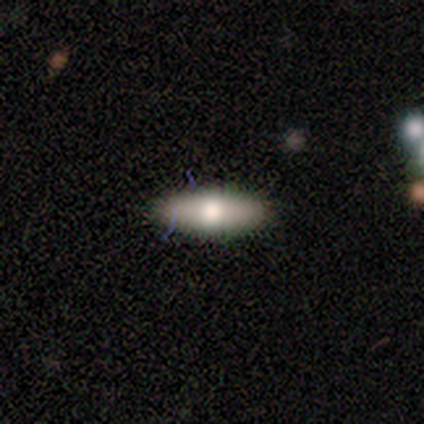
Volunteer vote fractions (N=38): Morphology: type=smooth (76%); roundness=in between (66%); merging=none (94%).